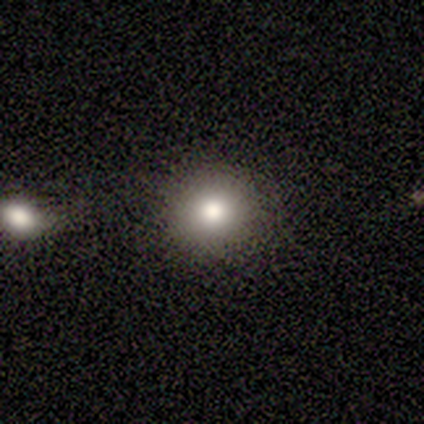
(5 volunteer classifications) Smooth or featured: smooth — 60% (featured or disk — 40%)
How rounded: round — 100%
Merging: none — 100%